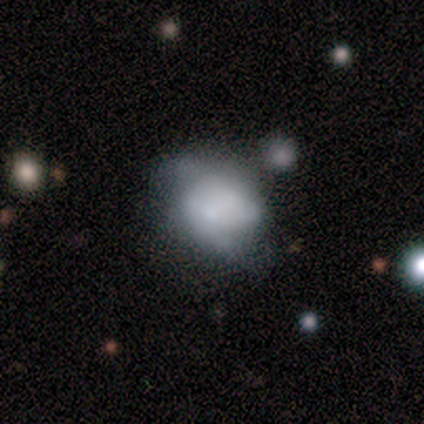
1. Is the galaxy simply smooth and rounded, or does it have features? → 100% smooth, 0% featured or disk, 0% star or artifact.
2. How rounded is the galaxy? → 100% in between, 0% round, 0% cigar-shaped.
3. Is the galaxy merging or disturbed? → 60% major disturbance, 40% minor disturbance, 0% none, 0% merger.